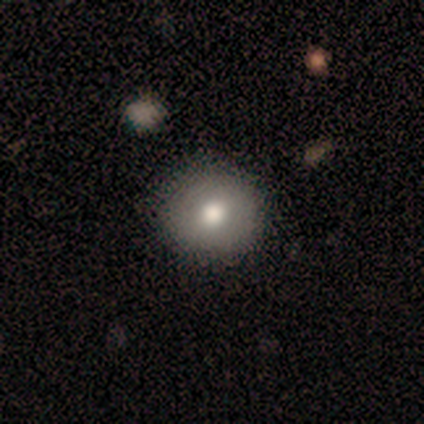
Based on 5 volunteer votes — Morphology: type=smooth (80%); roundness=round (100%); merging=none (100%).